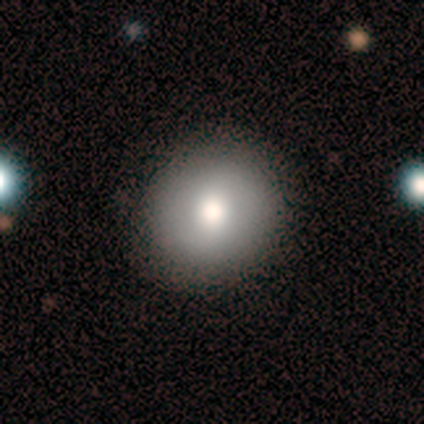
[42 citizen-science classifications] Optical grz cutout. It shows a smooth galaxy with no disk features (76%) that is round (91%). Merging: none (85%).